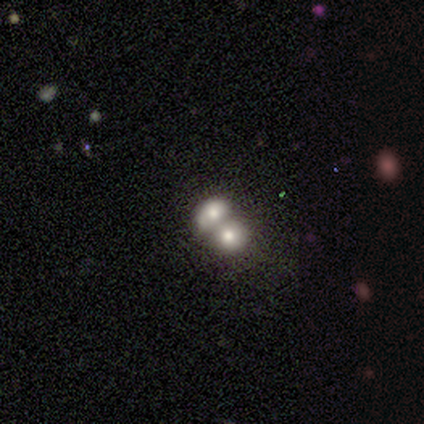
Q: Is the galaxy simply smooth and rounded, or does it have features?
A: smooth — 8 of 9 (89%).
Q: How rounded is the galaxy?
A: in between — 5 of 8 (62%).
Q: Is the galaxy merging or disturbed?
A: merger — 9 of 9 (100%).